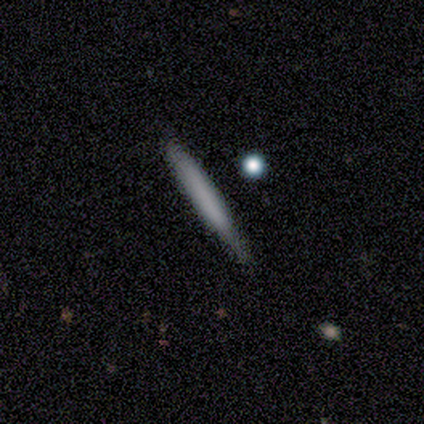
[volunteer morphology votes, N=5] This appears to be a smooth galaxy with no disk features (80%) that is cigar-shaped (100%). Merging: none (80%).